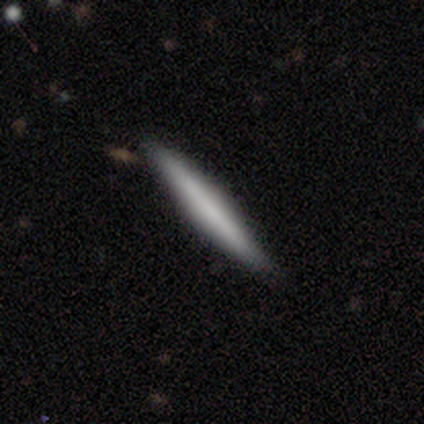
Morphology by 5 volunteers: Overall: featured or disk (60%; smooth 40%). Edge-on disk: yes (100%). Edge-on bulge: none (67%; boxy 33%). Merging: none (80%).